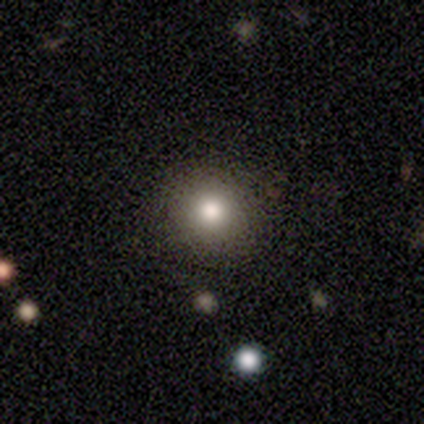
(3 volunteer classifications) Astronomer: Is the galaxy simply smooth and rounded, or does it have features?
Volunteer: smooth — 100%.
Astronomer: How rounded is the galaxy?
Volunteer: round — 67%.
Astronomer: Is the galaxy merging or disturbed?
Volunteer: none — 100%.